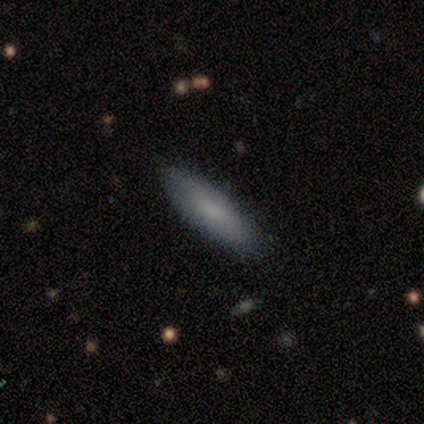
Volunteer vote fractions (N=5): Smooth or featured? 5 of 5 (100%) said smooth. How rounded? 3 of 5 (60%) said cigar-shaped. Merging? 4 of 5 (80%) said none.